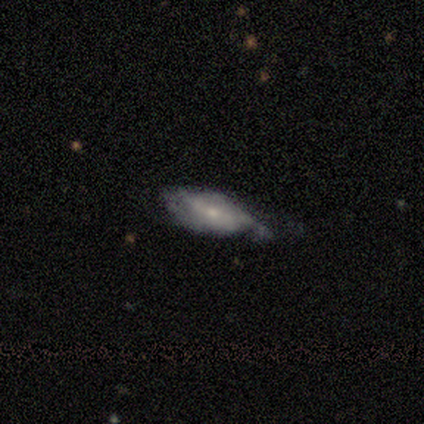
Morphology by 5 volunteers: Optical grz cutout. It shows a smooth galaxy with no disk features (60%) that is cigar-shaped (67%). Merging: minor disturbance (60%).